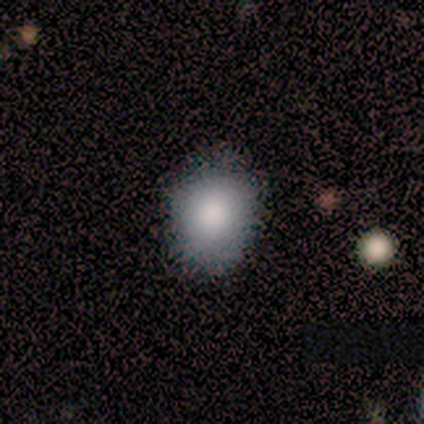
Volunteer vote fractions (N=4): Volunteers were most divided on "merging": none: 50%, minor disturbance: 25%, major disturbance: 25%, merger: 0%. More confident: smooth or featured — smooth (100%); how rounded — in between (100%).